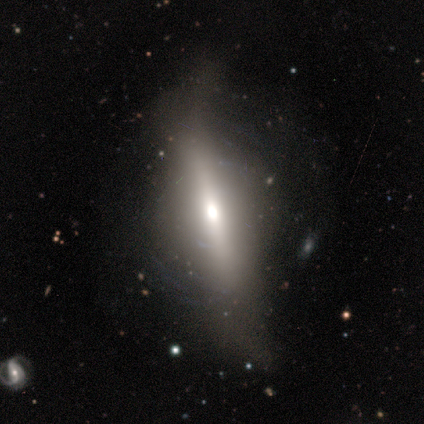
Smooth or featured? 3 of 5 (60%) said smooth. How rounded? 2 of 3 (67%) said cigar-shaped. Merging? 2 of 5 (40%, tied with major disturbance) said minor disturbance.